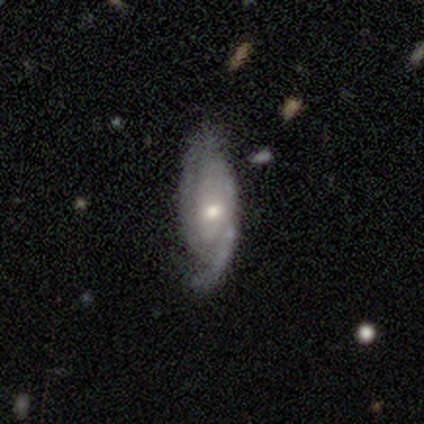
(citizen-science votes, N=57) This appears to be a featured or disk galaxy (77%) with no bar (60%), 2 (76%) tight (49%) spiral arms (98%) and a moderate central bulge (60%). Merging: none (69%).